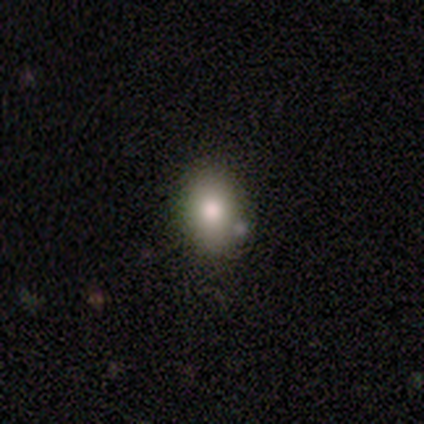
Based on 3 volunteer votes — smooth 67%, star or artifact 33%, featured or disk 0%. Down the decision tree: how rounded — round (100%); merging — none (100%).